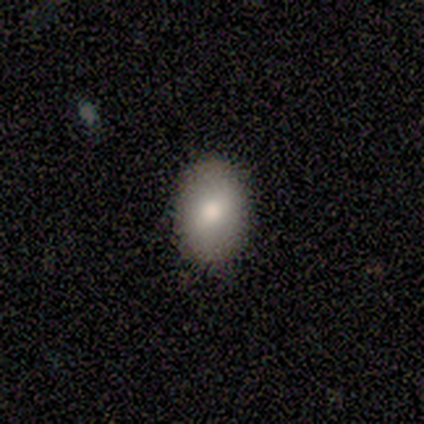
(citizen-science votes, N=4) Smooth or featured? smooth (100%)
How rounded? in between (100%)
Merging? none (75%)